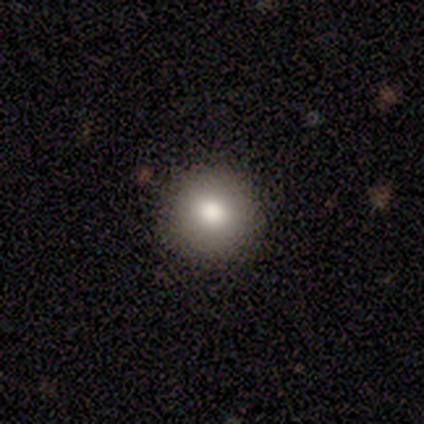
Morphology: type=smooth (100%); roundness=round (100%); merging=none (100%).